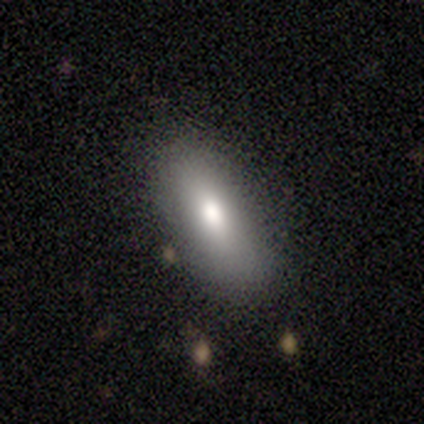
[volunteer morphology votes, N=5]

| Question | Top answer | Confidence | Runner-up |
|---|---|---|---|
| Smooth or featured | smooth | 100% | — |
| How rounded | in between | 100% | — |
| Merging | none | 80% | minor disturbance (20%) |